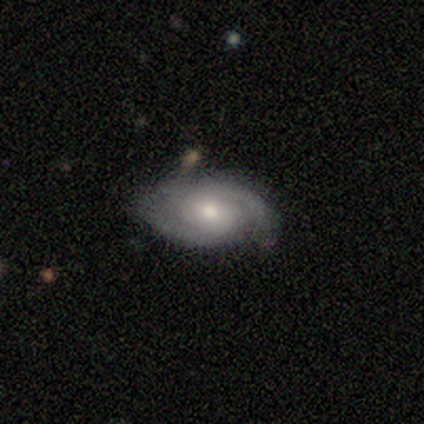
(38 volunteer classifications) Smooth or featured? featured or disk (82%)
Edge-on disk? no (97%)
Bar? no (63%)
Spiral arms? yes (97%)
Spiral winding? tight (59%)
Spiral arm count? 2 (90%)
Bulge size? moderate (60%)
Merging? none (82%)